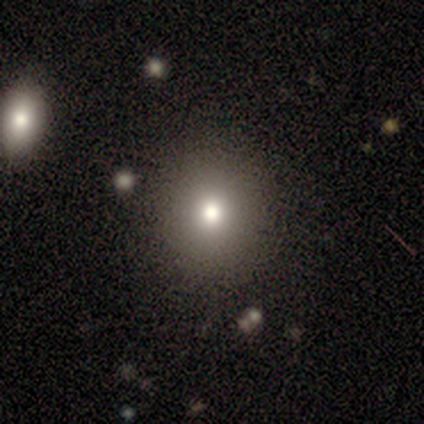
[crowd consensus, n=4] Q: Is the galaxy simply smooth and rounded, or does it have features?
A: smooth — 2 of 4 (50%).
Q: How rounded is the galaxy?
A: round — 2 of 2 (100%).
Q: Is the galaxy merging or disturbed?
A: none — 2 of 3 (67%).